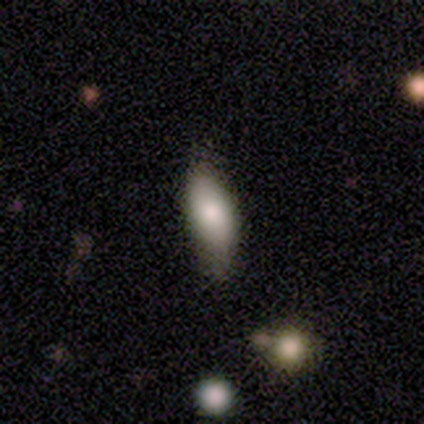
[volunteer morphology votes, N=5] smooth 80%, featured or disk 20%, star or artifact 0%. Down the decision tree: how rounded — in between (75%); merging — none (60%).